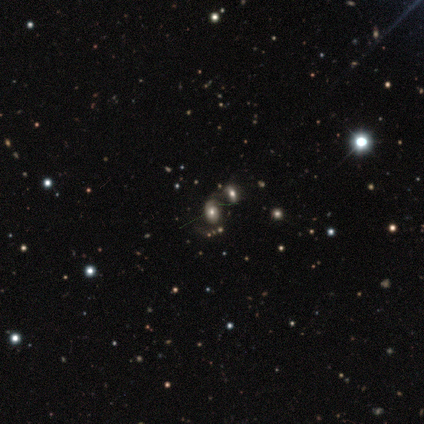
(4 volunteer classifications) featured or disk 50%, smooth 25%, star or artifact 25%. Down the decision tree: edge-on disk — no (100%); bar — weak (50%, tied with no); spiral arms — yes (100%); spiral arm count — 2 (50%, tied with can't tell); spiral winding — tight (50%, tied with loose); bulge size — large (50%, tied with moderate); merging — none (33%, tied with major disturbance and merger).